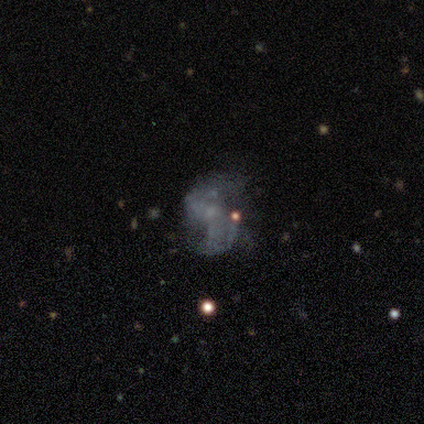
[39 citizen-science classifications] smooth-or-featured: featured or disk: 69% | star or artifact: 18% | smooth: 13%
  disk-edge-on: no: 100% | yes: 0%
    bar: no: 89% | weak: 11% | strong: 0%
    has-spiral-arms: no: 59% | yes: 41%
    bulge-size: none: 59% | small: 37% | large: 4% | dominant: 0% | moderate: 0%
  merging: major disturbance: 44% | none: 34% | minor disturbance: 16% | merger: 6%